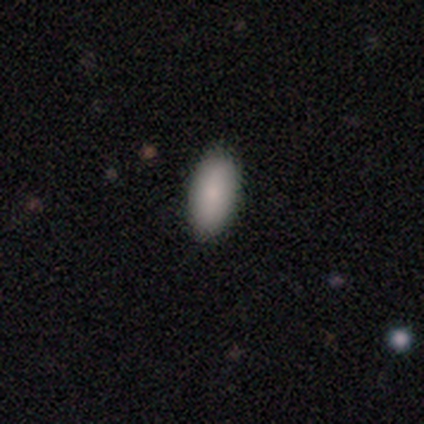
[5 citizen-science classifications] Smooth or featured?
  - smooth: 80% *
  - featured or disk: 20%
  - star or artifact: 0%
How rounded?
  - in between: 100% *
  - round: 0%
  - cigar-shaped: 0%
Merging?
  - none: 100% *
  - minor disturbance: 0%
  - major disturbance: 0%
  - merger: 0%